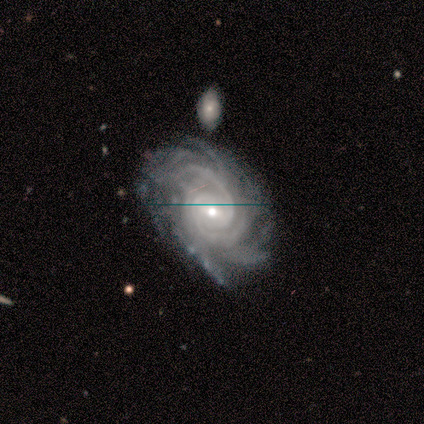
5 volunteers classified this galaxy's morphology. Smooth or featured: featured or disk — 80% (star or artifact — 20%)
Edge-on disk: no — 100%
Bar: no — 75% (weak — 25%)
Spiral arms: yes — 100%
Spiral winding: medium — 50% (tight — 25%)
Spiral arm count: more than 4 — 75% (3 — 25%)
Bulge size: small — 75% (moderate — 25%)
Merging: none — 100%